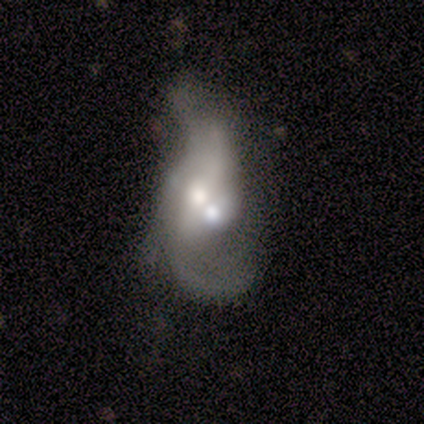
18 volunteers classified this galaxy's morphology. Overall: featured or disk (78%). Edge-on disk: no (100%). Bar: weak (43%; no 36%). Spiral arms: yes (86%). Spiral arm count: 2 (67%). Spiral winding: medium (50%; loose 42%). Bulge size: moderate (50%; large 36%). Merging: merger (59%).